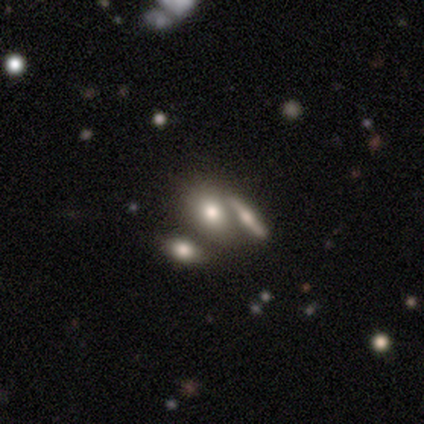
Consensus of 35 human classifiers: Smooth or featured: smooth — 71% (featured or disk — 14%)
How rounded: in between — 76% (round — 16%)
Merging: merger — 53%